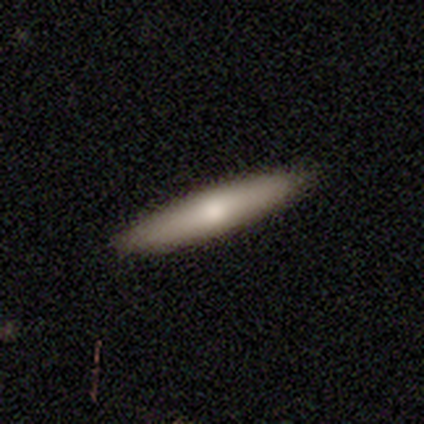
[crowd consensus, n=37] Volunteers were most divided on "smooth or featured": smooth: 70%, featured or disk: 27%, star or artifact: 3%. More confident: how rounded — cigar-shaped (85%); merging — none (61%).